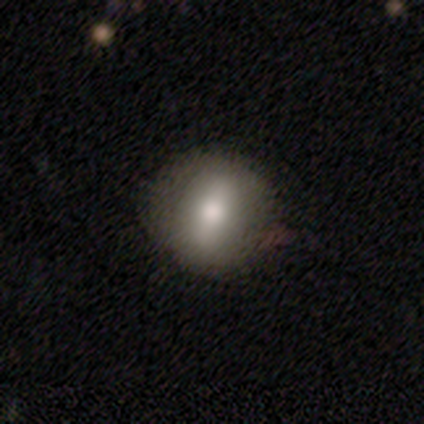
smooth_or_featured: smooth (p=0.69) [alt: featured or disk p=0.28]
how_rounded: round (p=0.74) [alt: in between p=0.26]
merging: none (p=0.61) [alt: minor disturbance p=0.16]